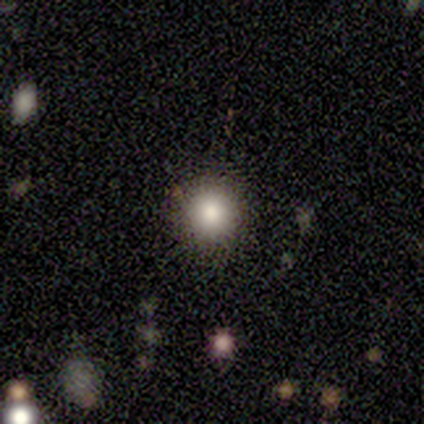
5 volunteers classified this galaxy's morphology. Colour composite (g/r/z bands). It shows a smooth galaxy with no disk features (100%) that is round (100%). Merging: none (100%).